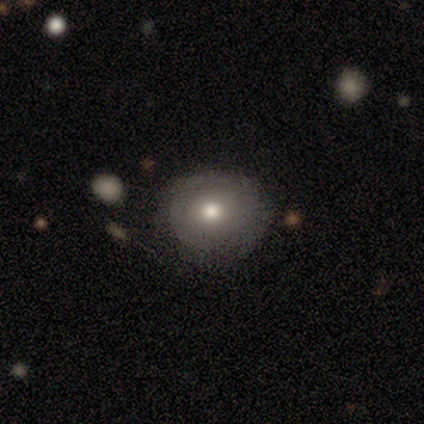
smooth-or-featured: smooth: 100% | featured or disk: 0% | star or artifact: 0%
  how-rounded: round: 62% | in between: 38% | cigar-shaped: 0%
  merging: none: 75% | minor disturbance: 25% | major disturbance: 0% | merger: 0%